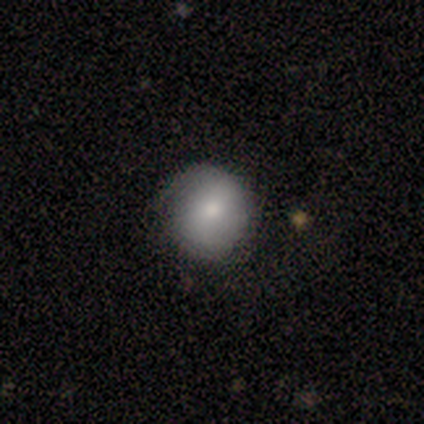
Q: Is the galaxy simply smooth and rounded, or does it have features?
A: smooth — 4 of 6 (67%).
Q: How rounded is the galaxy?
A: round — 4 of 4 (100%).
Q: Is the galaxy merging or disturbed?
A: none — 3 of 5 (60%).